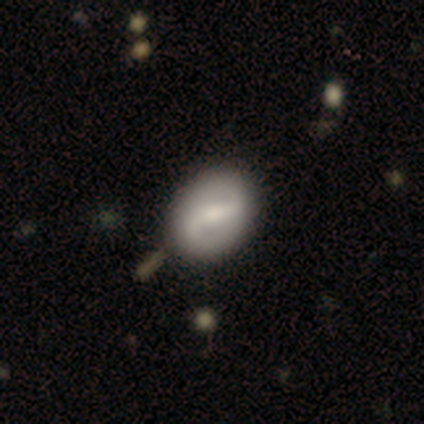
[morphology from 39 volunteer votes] A featured or disk galaxy (74%) with a strong bar (59%), 2 (92%) loose (42%) spiral arms (83%) and a moderate central bulge (45%). Merging: none (70%).